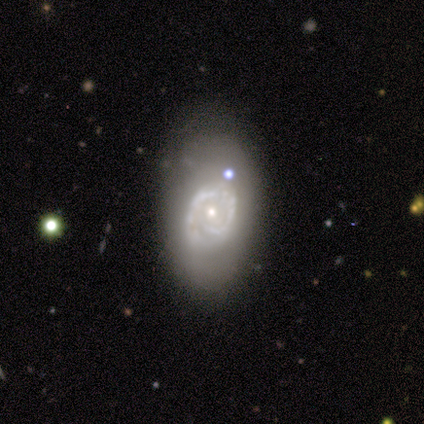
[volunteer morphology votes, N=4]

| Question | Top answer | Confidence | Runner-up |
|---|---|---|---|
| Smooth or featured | star or artifact | 75% | smooth (25%) |